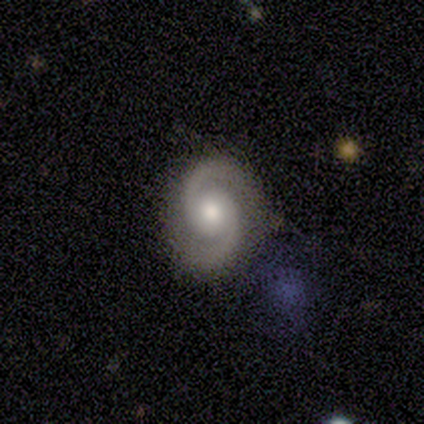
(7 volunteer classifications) This appears to be a featured or disk galaxy (100%) with no bar (86%), 2 (100%) medium (71%) spiral arms (100%) and a moderate central bulge (57%). Merging: none (71%).